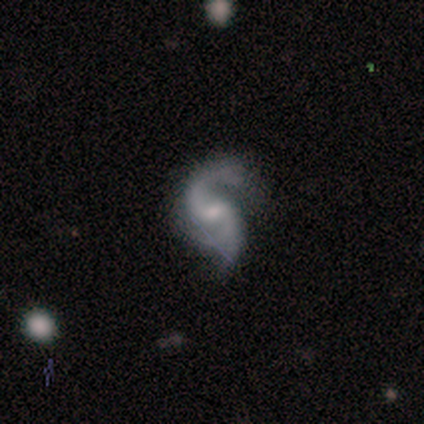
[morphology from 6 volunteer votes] Q: Smooth or featured?
A: featured or disk (100%)
Q: Edge-on disk?
A: no (100%)
Q: Bar?
A: weak (50%); runner-up: no (33%)
Q: Spiral arms?
A: yes (100%)
Q: Spiral winding?
A: medium (50%); tied with: loose (50%)
Q: Spiral arm count?
A: 2 (67%); runner-up: 3 (33%)
Q: Bulge size?
A: moderate (50%); tied with: small (50%)
Q: Merging?
A: minor disturbance (67%); runner-up: none (17%)